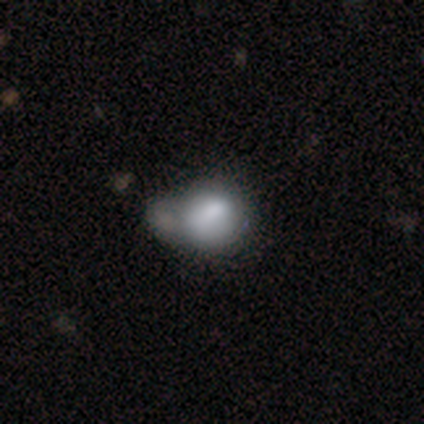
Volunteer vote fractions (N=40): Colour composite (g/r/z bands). It shows a smooth galaxy with no disk features (60%) that is round (71%). Merging: merger (49%).